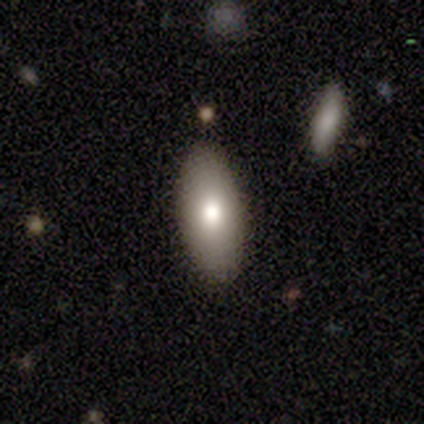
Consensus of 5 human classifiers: Smooth or featured? 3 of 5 (60%) said smooth. How rounded? 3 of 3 (100%) said in between. Merging? 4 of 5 (80%) said none.